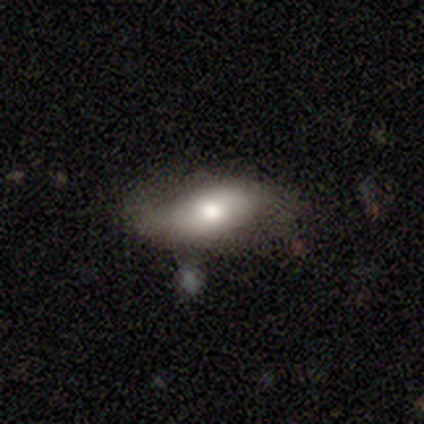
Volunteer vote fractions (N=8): Smooth or featured?
  - featured or disk: 50% *
  - smooth: 38%
  - star or artifact: 12%
Edge-on disk?
  - no: 100% *
  - yes: 0%
Bar?
  - no: 100% *
  - strong: 0%
  - weak: 0%
Spiral arms?
  - yes: 50% * (tied)
  - no: 50% * (tied)
Spiral winding?
  - tight: 50% * (tied)
  - loose: 50% * (tied)
  - medium: 0%
Spiral arm count?
  - 2: 100% *
  - 1: 0%
  - 3: 0%
  - 4: 0%
  - more than 4: 0%
  - can't tell: 0%
Bulge size?
  - moderate: 75% *
  - large: 25%
  - dominant: 0%
  - small: 0%
  - none: 0%
Merging?
  - none: 43% *
  - major disturbance: 29%
  - merger: 29%
  - minor disturbance: 0%